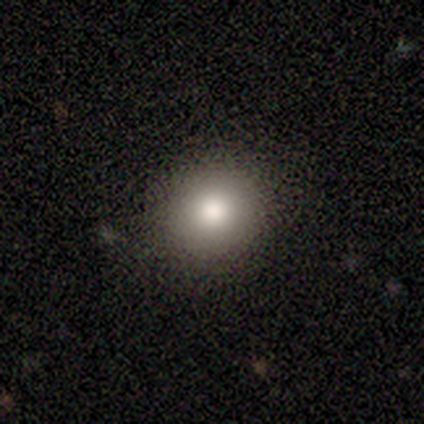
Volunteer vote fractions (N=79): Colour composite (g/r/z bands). It shows a smooth galaxy with no disk features (77%) that is round (93%). Merging: none (51%).